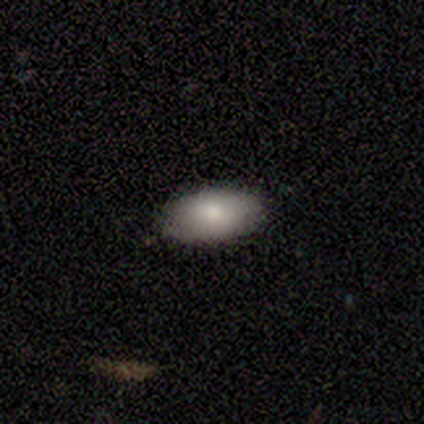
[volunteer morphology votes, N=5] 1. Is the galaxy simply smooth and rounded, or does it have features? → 80% smooth, 20% featured or disk, 0% star or artifact.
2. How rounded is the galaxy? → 100% in between, 0% round, 0% cigar-shaped.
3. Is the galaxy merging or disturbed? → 80% none, 20% minor disturbance, 0% major disturbance, 0% merger.